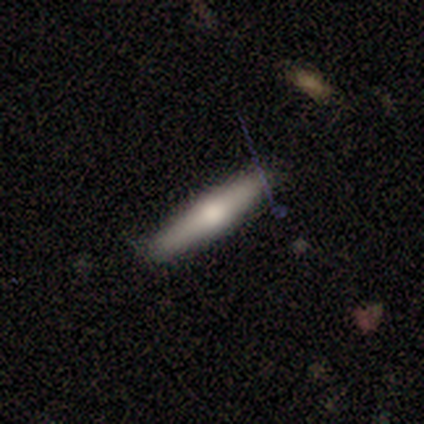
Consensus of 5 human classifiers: A featured or disk galaxy (80%) viewed edge-on (100%) with a rounded central bulge (75%).

Vote fractions:
- Smooth or featured? featured or disk: 80% / smooth: 20% / star or artifact: 0%
- Edge-on disk? yes: 100% / no: 0%
- Edge-on bulge? rounded: 75% / none: 25% / boxy: 0%
- Merging? none: 100% / minor disturbance: 0% / major disturbance: 0% / merger: 0%